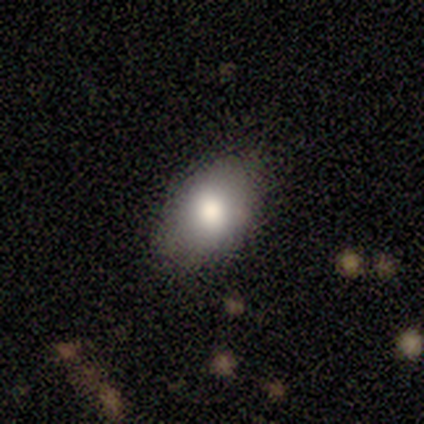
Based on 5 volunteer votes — Smooth or featured? smooth (60%)
How rounded? in between (100%)
Merging? none (67%)